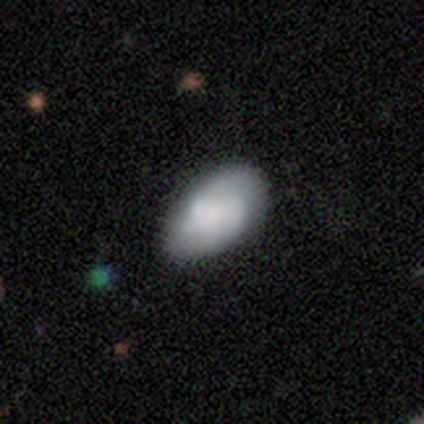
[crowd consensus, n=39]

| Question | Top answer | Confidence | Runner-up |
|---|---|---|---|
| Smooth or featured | featured or disk | 54% | smooth (46%) |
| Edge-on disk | no | 95% | yes (5%) |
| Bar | no | 65% | weak (30%) |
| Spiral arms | yes | 50% | tied: no (50%) |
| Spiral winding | medium | 50% | tight (30%) |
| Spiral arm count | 2 | 70% | can't tell (30%) |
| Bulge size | small | 35% | none (30%) |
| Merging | none | 44% | merger (15%) |